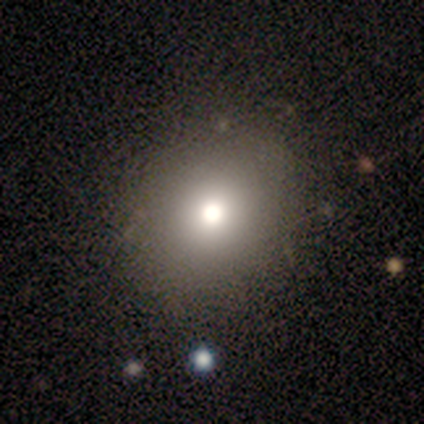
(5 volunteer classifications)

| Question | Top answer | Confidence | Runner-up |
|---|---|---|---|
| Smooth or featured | smooth | 80% | featured or disk (20%) |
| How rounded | round | 50% | tied: in between (50%) |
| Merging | none | 80% | minor disturbance (20%) |